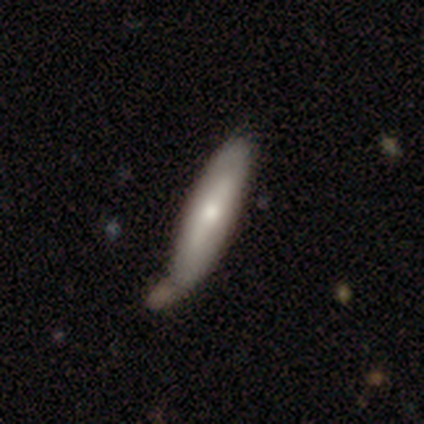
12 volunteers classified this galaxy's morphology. Volunteers were most divided on "smooth or featured" (2-way tie): smooth: 50%, featured or disk: 50%, star or artifact: 0%. More confident: how rounded — cigar-shaped (83%); merging — none (67%).